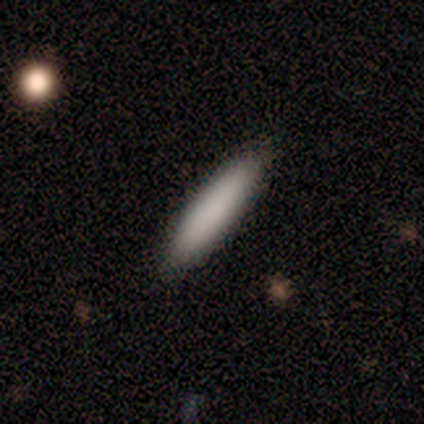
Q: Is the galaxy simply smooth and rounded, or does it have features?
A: smooth — 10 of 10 (100%).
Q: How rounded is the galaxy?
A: cigar-shaped — 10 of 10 (100%).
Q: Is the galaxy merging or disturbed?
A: none — 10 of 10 (100%).